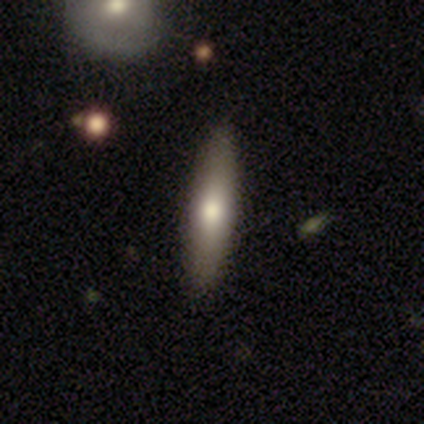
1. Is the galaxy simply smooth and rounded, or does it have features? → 50% smooth (tied), 50% featured or disk (tied), 0% star or artifact.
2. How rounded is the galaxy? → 100% cigar-shaped, 0% round, 0% in between.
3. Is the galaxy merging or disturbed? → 100% none, 0% minor disturbance, 0% major disturbance, 0% merger.